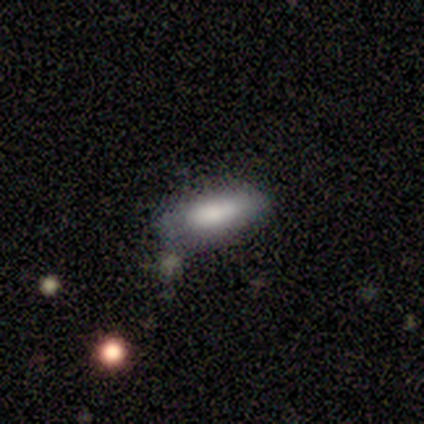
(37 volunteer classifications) Smooth or featured? 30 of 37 (81%) said smooth. How rounded? 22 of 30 (73%) said in between. Merging? 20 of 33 (61%) said none.